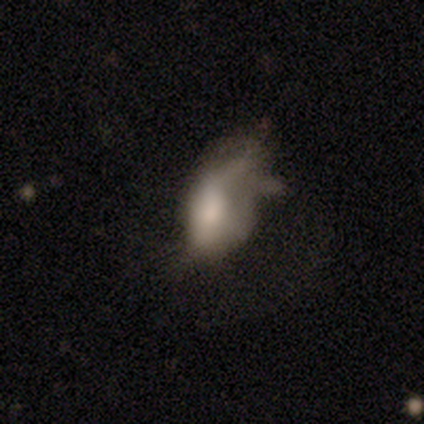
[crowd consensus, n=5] Morphology: type=smooth (80%); roundness=in between (100%); merging=none (40%, tied with major disturbance).